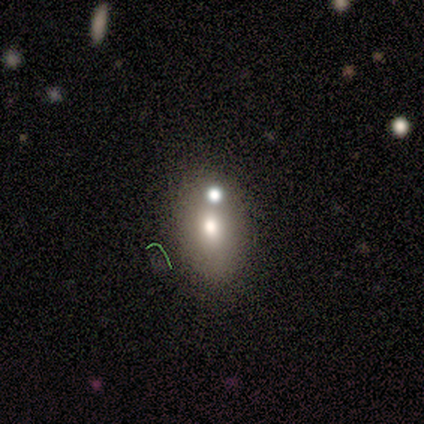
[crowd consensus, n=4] A star or artifact, not a galaxy (50%).

Vote fractions:
- Smooth or featured? star or artifact: 50% / smooth: 25% / featured or disk: 25%